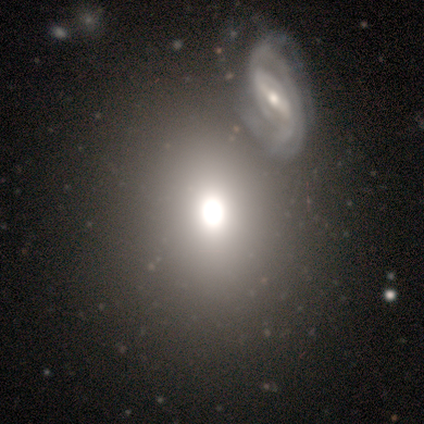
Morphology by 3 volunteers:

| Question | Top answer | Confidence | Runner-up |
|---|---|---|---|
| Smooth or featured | smooth | 33% | tied: featured or disk (33%), star or artifact (33%) |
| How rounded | round | 100% | — |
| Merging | none | 100% | — |